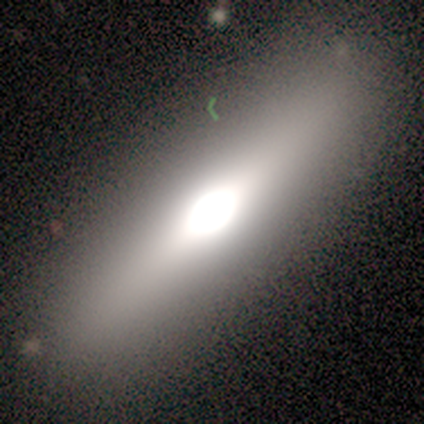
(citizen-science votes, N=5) Smooth or featured?
  - featured or disk: 80% *
  - smooth: 20%
  - star or artifact: 0%
Edge-on disk?
  - yes: 100% *
  - no: 0%
Edge-on bulge?
  - rounded: 100% *
  - boxy: 0%
  - none: 0%
Merging?
  - none: 100% *
  - minor disturbance: 0%
  - major disturbance: 0%
  - merger: 0%